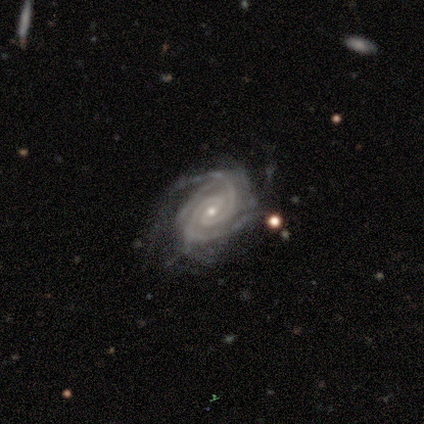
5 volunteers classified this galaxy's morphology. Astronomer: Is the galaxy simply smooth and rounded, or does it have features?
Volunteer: featured or disk — 100%.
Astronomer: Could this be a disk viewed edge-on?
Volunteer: no — 100%.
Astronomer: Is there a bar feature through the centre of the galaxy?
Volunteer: weak — 60%.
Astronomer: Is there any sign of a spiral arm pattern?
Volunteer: yes — 100%.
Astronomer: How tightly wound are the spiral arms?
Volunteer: tight — 80%.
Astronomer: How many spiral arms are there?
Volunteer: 2 — 80%.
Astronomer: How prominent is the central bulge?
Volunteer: small — 80%.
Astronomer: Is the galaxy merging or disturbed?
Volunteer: minor disturbance — 60% (runner-up: none, 40%).